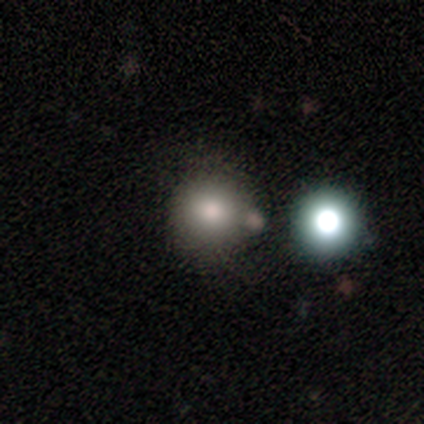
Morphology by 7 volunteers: type=smooth (71%); roundness=round (100%); merging=none (60%).